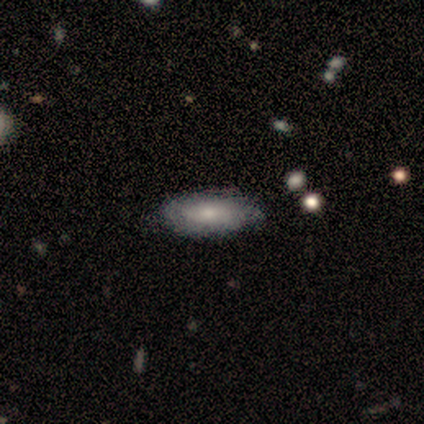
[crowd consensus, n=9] This appears to be a smooth galaxy with no disk features (56%) that is in between round and cigar-shaped (100%). Merging: none (78%).